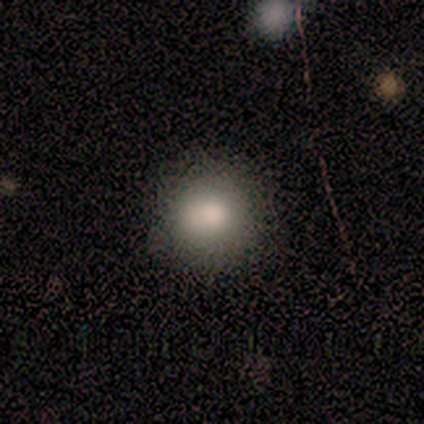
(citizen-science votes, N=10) smooth_or_featured: smooth (p=0.80) [alt: featured or disk p=0.20]
how_rounded: round (p=1.00)
merging: none (p=0.70) [alt: minor disturbance p=0.30]